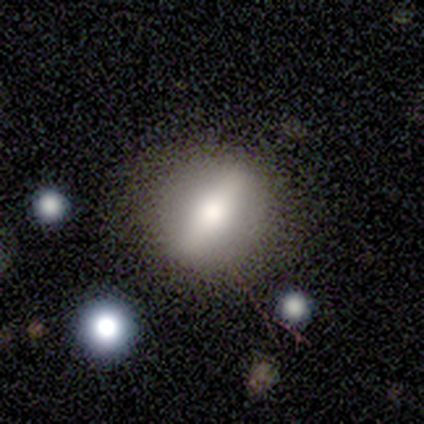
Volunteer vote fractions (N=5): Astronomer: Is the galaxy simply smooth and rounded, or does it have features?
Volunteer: featured or disk — 60% (runner-up: smooth, 40%).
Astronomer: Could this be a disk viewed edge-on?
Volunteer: no — 67%.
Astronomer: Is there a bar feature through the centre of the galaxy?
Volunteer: strong — 100%.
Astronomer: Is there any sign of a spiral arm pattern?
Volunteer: no — 100%.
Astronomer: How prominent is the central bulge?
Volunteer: moderate — 50%, tied with small at 50%.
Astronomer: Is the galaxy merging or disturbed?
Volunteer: none — 80%.